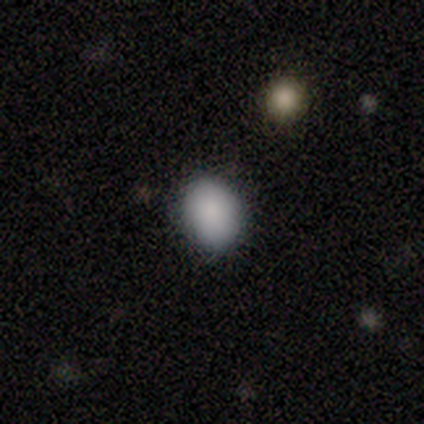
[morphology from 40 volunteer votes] smooth 92%, star or artifact 5%, featured or disk 2%. Down the decision tree: how rounded — in between (68%); merging — none (89%).